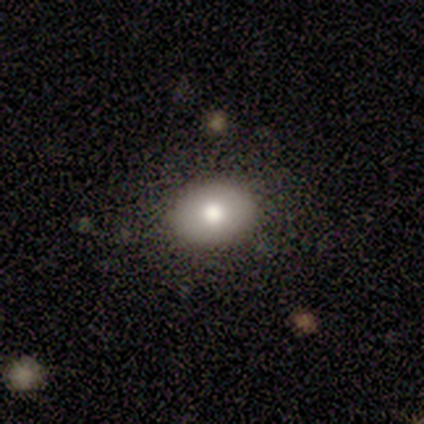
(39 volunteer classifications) This appears to be a smooth galaxy with no disk features (64%) that is in between round and cigar-shaped (88%). Merging: none (90%).